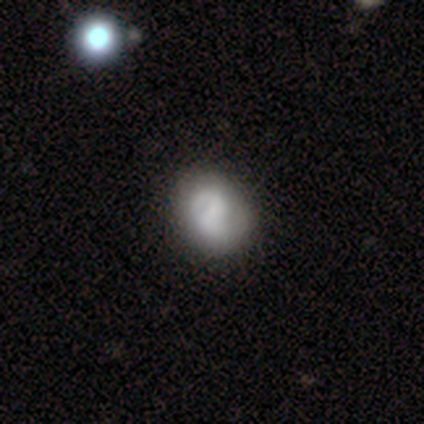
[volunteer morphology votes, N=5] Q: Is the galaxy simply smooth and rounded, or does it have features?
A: smooth — 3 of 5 (60%).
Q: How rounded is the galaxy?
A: in between — 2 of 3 (67%).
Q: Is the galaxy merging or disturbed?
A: none — 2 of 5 (40%, tied with minor disturbance).